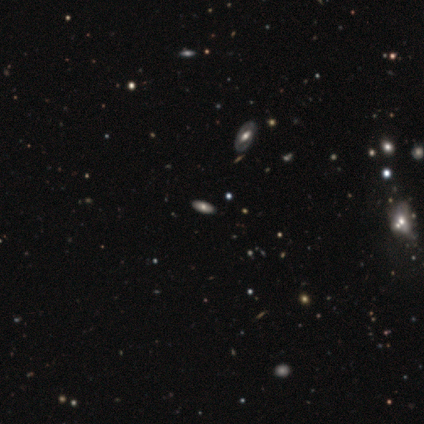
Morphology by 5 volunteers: Overall: smooth (60%; star or artifact 40%). How rounded: in between (100%). Merging: none (100%).